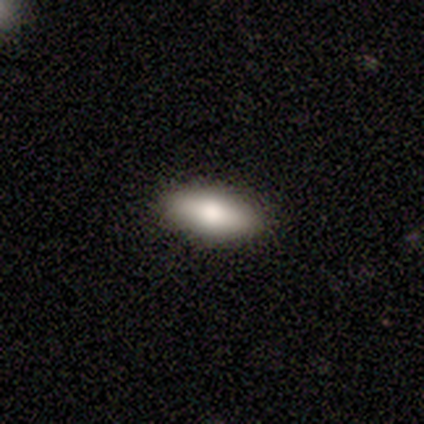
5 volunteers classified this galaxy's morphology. Volunteers were most divided on "how rounded": in between: 75%, cigar-shaped: 25%, round: 0%. More confident: merging — none (100%); smooth or featured — smooth (80%).